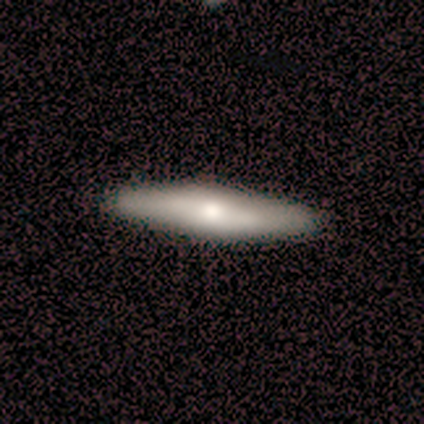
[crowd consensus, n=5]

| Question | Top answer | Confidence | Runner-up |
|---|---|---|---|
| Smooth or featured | featured or disk | 60% | smooth (40%) |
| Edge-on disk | yes | 100% | — |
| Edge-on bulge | rounded | 67% | boxy (33%) |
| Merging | none | 100% | — |